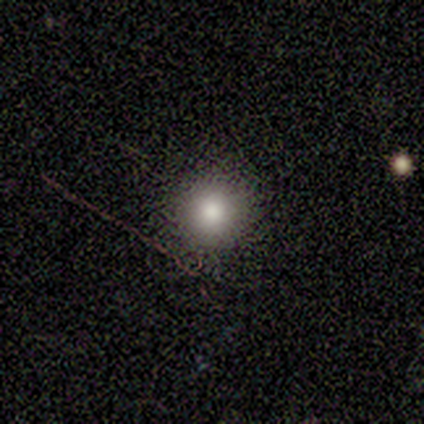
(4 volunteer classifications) Smooth or featured: smooth — 75% (star or artifact — 25%)
How rounded: round — 100%
Merging: none — 100%